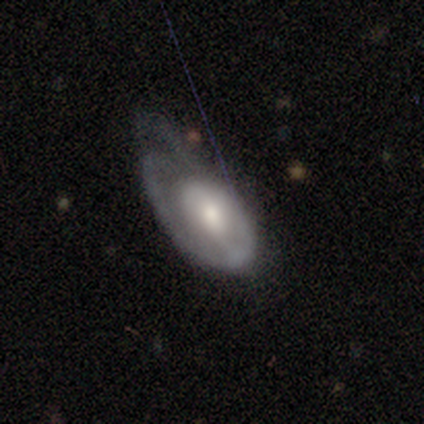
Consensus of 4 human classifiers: Q: Smooth or featured?
A: featured or disk (100%)
Q: Edge-on disk?
A: no (100%)
Q: Bar?
A: no (75%); runner-up: weak (25%)
Q: Spiral arms?
A: yes (100%)
Q: Spiral winding?
A: medium (75%); runner-up: loose (25%)
Q: Spiral arm count?
A: 1 (100%)
Q: Bulge size?
A: moderate (50%); runner-up: large (25%)
Q: Merging?
A: none (50%); runner-up: minor disturbance (25%)